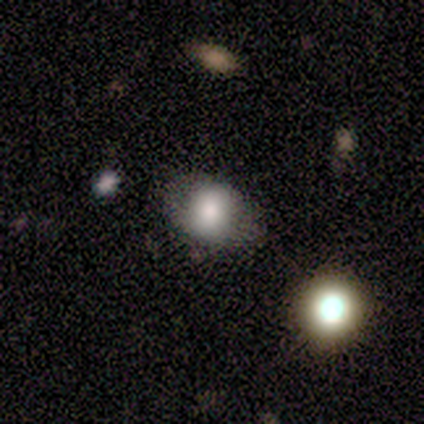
A smooth galaxy with no disk features (86%) that is round (67%). Merging: none (71%).